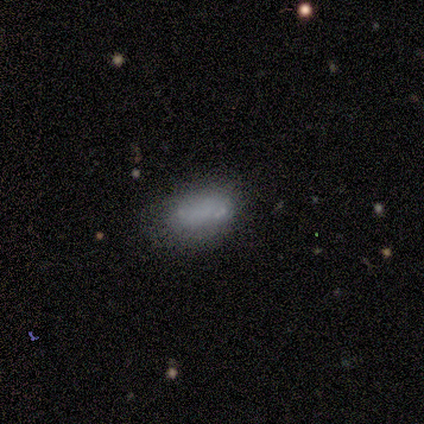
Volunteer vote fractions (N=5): Q: Smooth or featured?
A: smooth (60%); runner-up: featured or disk (20%)
Q: How rounded?
A: in between (100%)
Q: Merging?
A: none (100%)